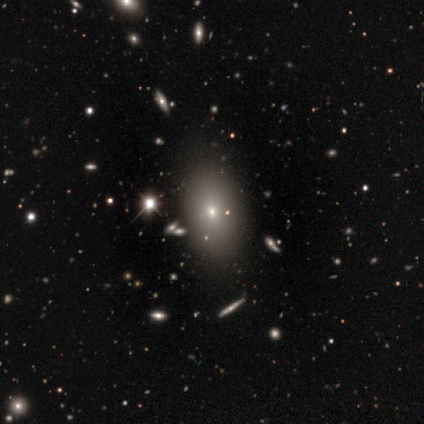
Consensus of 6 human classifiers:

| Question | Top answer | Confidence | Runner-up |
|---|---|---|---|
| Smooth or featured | smooth | 33% | tied: featured or disk (33%), star or artifact (33%) |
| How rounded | in between | 100% | — |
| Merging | none | 75% | minor disturbance (25%) |